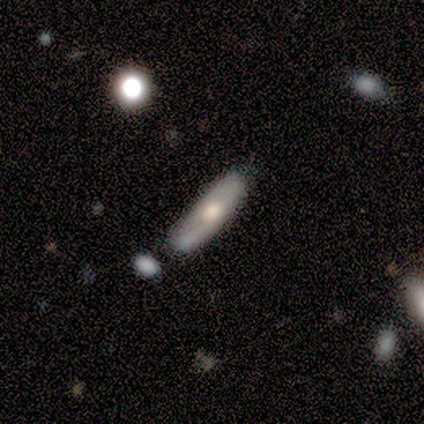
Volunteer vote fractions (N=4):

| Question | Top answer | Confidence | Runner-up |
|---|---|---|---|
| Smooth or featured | smooth | 50% | tied: featured or disk (50%) |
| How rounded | in between | 50% | tied: cigar-shaped (50%) |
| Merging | none | 50% | major disturbance (25%) |